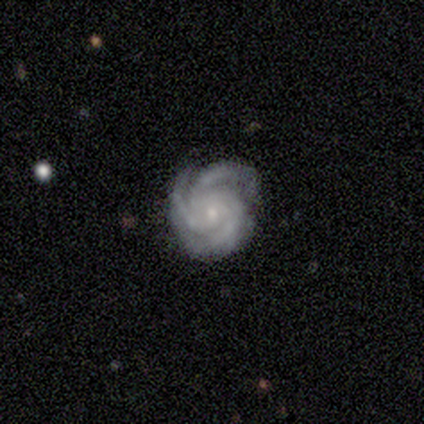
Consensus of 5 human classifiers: This is clearly a featured or disk galaxy (100%). It is clearly not viewed edge-on (100%). Bar: clearly no (100%). Spiral arm pattern: clearly yes (100%). Spiral arm count: clearly 3 (100%). Spiral winding: clearly tight (80%). Central bulge: clearly small (100%). Merging: clearly none (100%).